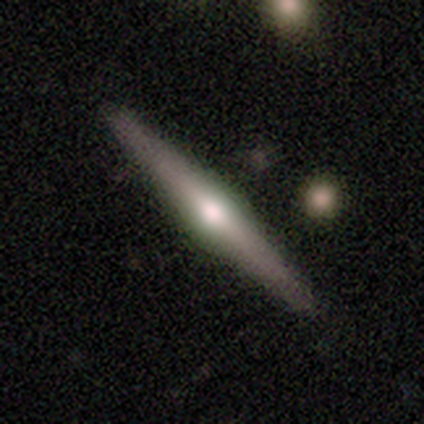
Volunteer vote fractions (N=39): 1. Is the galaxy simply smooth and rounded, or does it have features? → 77% featured or disk, 23% smooth, 0% star or artifact.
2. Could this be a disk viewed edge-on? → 100% yes, 0% no.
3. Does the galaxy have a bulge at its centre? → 93% rounded, 7% boxy, 0% none.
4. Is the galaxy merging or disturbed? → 67% none, 5% merger, 3% major disturbance, 0% minor disturbance.